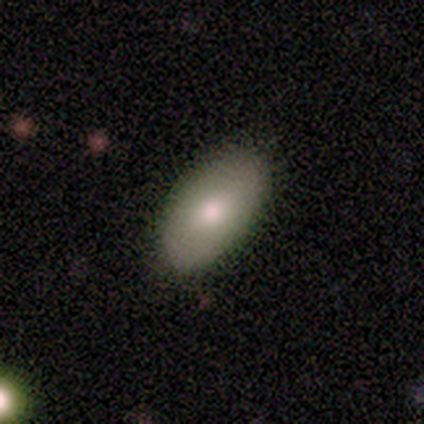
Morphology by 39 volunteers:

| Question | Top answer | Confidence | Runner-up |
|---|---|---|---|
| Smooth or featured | smooth | 85% | featured or disk (10%) |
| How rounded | in between | 100% | — |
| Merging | none | 92% | minor disturbance (5%) |